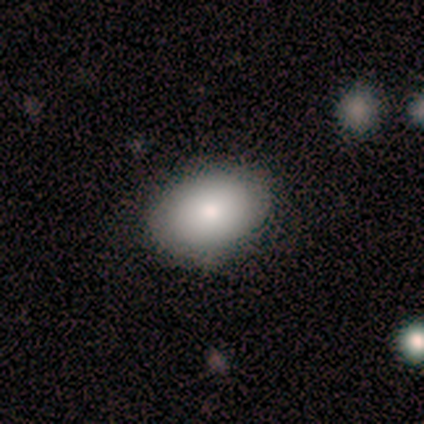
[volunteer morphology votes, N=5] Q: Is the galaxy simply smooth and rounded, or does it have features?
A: smooth — 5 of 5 (100%).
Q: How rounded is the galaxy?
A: in between — 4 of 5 (80%).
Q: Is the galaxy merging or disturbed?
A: none — 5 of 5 (100%).